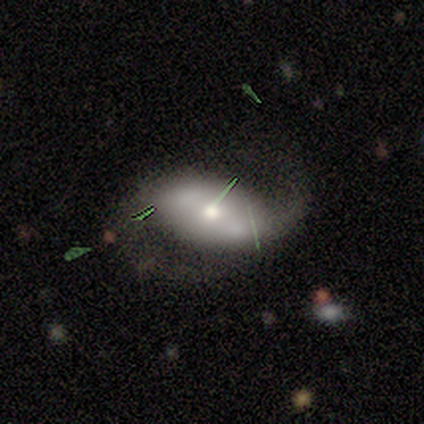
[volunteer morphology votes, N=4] Smooth or featured? smooth (50%, tied with featured or disk)
How rounded? in between (100%)
Merging? none (50%)